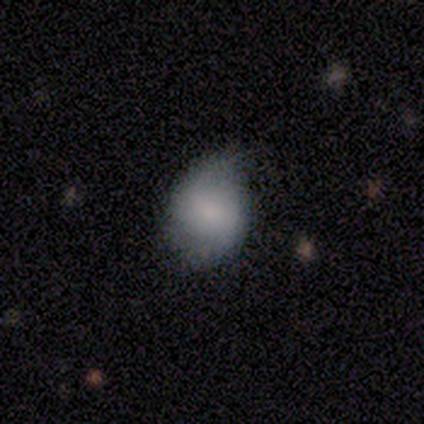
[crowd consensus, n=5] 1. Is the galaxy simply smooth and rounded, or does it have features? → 80% featured or disk, 20% star or artifact, 0% smooth.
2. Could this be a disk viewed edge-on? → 75% no, 25% yes.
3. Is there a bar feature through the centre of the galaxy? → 100% no, 0% strong, 0% weak.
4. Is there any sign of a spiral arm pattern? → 67% yes, 33% no.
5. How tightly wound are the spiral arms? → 100% medium, 0% tight, 0% loose.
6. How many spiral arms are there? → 100% 2, 0% 1, 0% 3, 0% 4, 0% more than 4, 0% can't tell.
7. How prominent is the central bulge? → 67% moderate, 33% small, 0% dominant, 0% large, 0% none.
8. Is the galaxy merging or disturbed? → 75% none, 25% merger, 0% minor disturbance, 0% major disturbance.